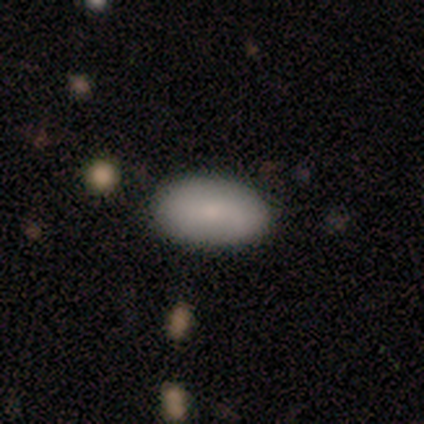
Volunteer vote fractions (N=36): Smooth or featured: smooth — 81% (featured or disk — 19%)
How rounded: in between — 86% (cigar-shaped — 10%)
Merging: none — 86% (minor disturbance — 11%)